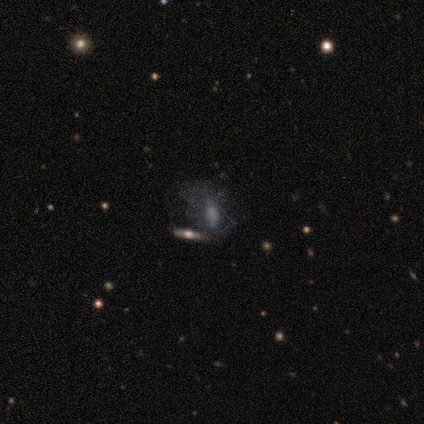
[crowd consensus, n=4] This appears to be a smooth galaxy with no disk features (50%, tied with featured or disk) that is in between round and cigar-shaped (100%). Merging: major disturbance (50%).